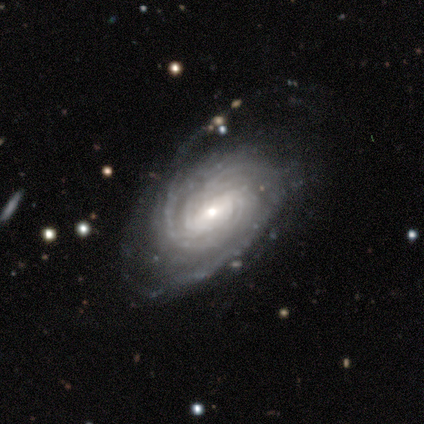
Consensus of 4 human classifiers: smooth-or-featured: featured or disk: 100% | smooth: 0% | star or artifact: 0%
  disk-edge-on: no: 100% | yes: 0%
    bar: strong: 50% | weak: 25% | no: 25%
    has-spiral-arms: yes: 100% | no: 0%
      spiral-winding: medium: 50% | tight: 25% | loose: 25%
      spiral-arm-count: can't tell: 50% | 3: 25% | more than 4: 25% | 1: 0% | 2: 0% | 4: 0%
    bulge-size: small: 75% | large: 25% | dominant: 0% | moderate: 0% | none: 0%
  merging: none: 75% | minor disturbance: 25% | major disturbance: 0% | merger: 0%